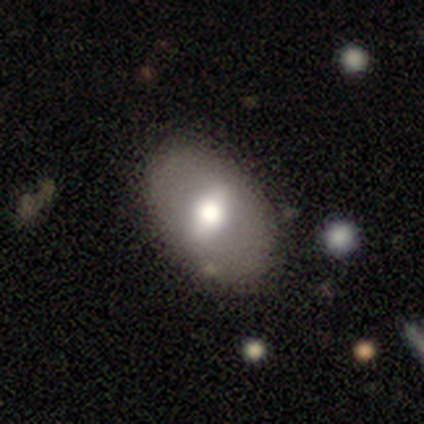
smooth-or-featured: smooth: 58% | featured or disk: 32% | star or artifact: 11%
  how-rounded: in between: 77% | round: 23% | cigar-shaped: 0%
  merging: none: 85% | minor disturbance: 6% | merger: 6% | major disturbance: 3%